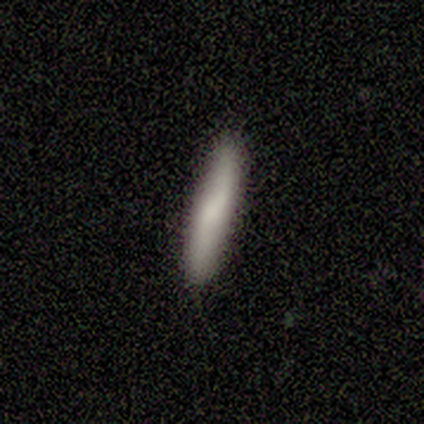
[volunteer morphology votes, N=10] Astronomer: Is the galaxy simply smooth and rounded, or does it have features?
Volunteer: smooth — 60% (runner-up: featured or disk, 40%).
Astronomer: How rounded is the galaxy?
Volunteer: cigar-shaped — 100%.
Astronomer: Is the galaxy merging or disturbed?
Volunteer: none — 90%.